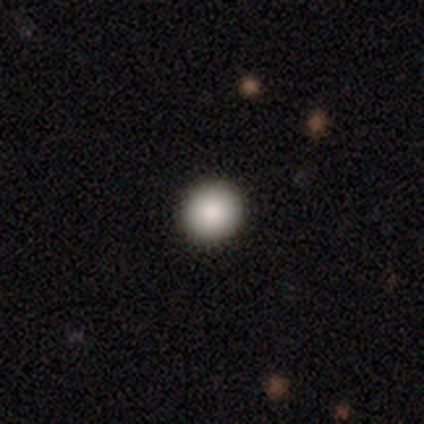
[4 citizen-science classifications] This is clearly a smooth galaxy (100%). How rounded: clearly round (100%). Merging: clearly none (100%).